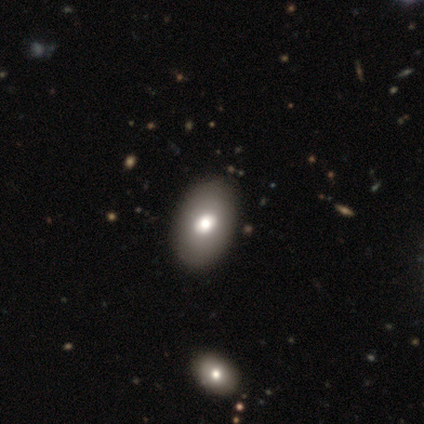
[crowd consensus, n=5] Smooth or featured? 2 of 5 (40%, tied with featured or disk) said smooth. How rounded? 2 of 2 (100%) said in between. Merging? 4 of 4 (100%) said none.